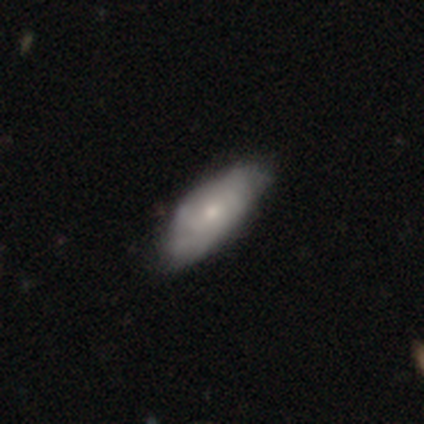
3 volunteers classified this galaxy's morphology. smooth_or_featured: featured or disk (p=0.67) [alt: smooth p=0.33]
disk_edge_on: yes (p=0.50) [tied with: no p=0.50]
edge_on_bulge: rounded (p=1.00)
merging: none (p=0.67) [alt: minor disturbance p=0.33]